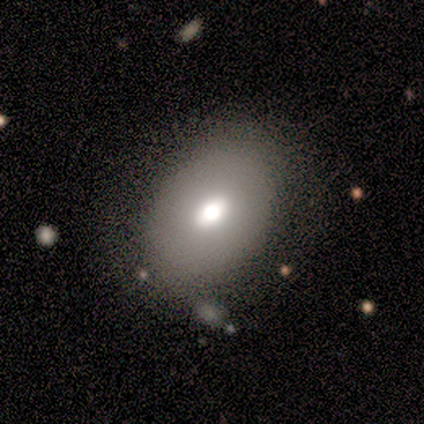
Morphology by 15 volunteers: smooth_or_featured: smooth (p=0.67) [alt: featured or disk p=0.27]
how_rounded: in between (p=0.90) [alt: round p=0.10]
merging: none (p=0.79) [alt: minor disturbance p=0.21]